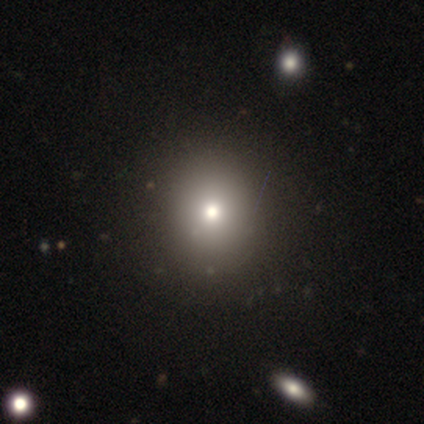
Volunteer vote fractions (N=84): Volunteers were most divided on "how rounded": round: 77%, in between: 21%, cigar-shaped: 2%. More confident: merging — none (81%); smooth or featured — smooth (79%).